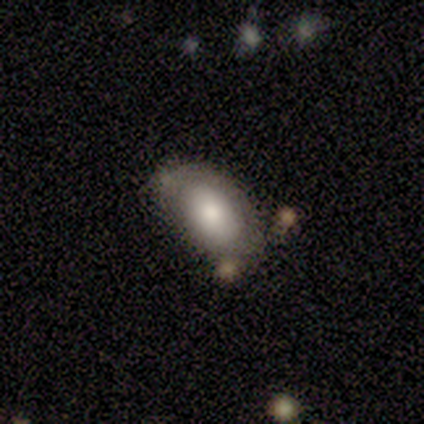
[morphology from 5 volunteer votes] Volunteers were most divided on "merging" (2-way tie): none: 40%, minor disturbance: 40%, merger: 20%, major disturbance: 0%. More confident: smooth or featured — smooth (100%); how rounded — in between (100%).